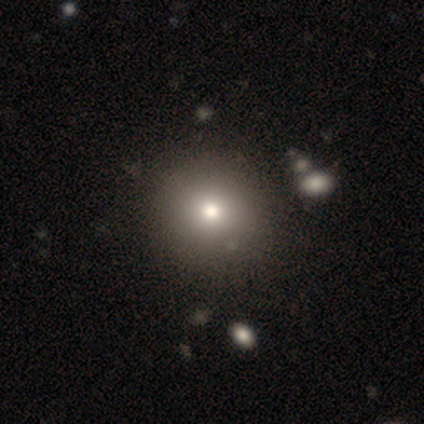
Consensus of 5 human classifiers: Morphology: type=smooth (80%); roundness=round (100%); merging=none (80%).